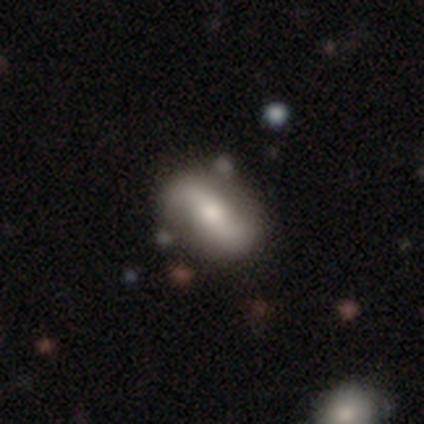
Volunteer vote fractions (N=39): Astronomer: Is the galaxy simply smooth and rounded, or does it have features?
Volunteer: featured or disk — 77%.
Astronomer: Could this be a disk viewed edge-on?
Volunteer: no — 97%.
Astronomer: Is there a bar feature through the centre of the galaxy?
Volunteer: strong — 62%.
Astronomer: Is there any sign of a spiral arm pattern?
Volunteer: yes — 83%.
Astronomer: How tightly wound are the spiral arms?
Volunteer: loose — 79%.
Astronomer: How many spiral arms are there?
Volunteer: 2 — 92%.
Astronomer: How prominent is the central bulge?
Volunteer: moderate — 76%.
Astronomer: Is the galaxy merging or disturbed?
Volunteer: none — 66%.